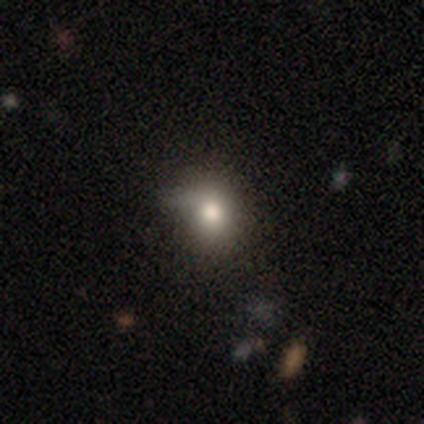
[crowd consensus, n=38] Smooth or featured: smooth — 63% (featured or disk — 18%)
How rounded: round — 54% (in between — 46%)
Merging: none — 52% (minor disturbance — 45%)